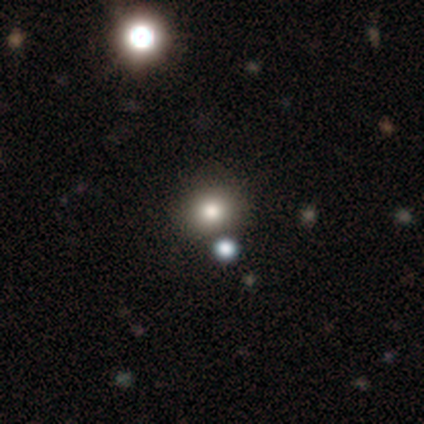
smooth-or-featured: smooth: 74% | star or artifact: 21% | featured or disk: 5%
  how-rounded: round: 71% | in between: 29% | cigar-shaped: 0%
  merging: none: 53% | merger: 23% | minor disturbance: 10% | major disturbance: 0%